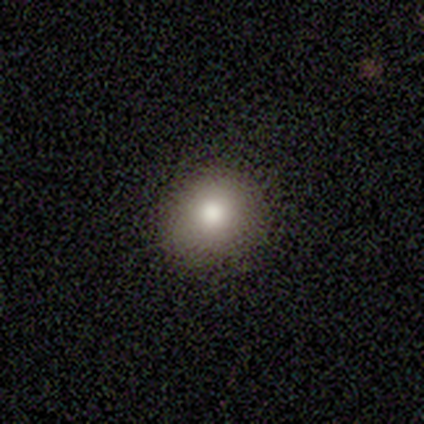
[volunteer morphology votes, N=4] This appears to be a smooth galaxy with no disk features (75%) that is round (67%). Merging: none (67%).